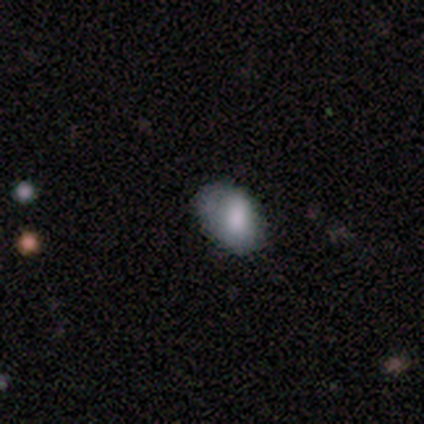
Q: Smooth or featured?
A: smooth (75%); runner-up: featured or disk (12%)
Q: How rounded?
A: in between (83%); runner-up: round (17%)
Q: Merging?
A: minor disturbance (57%); runner-up: none (43%)